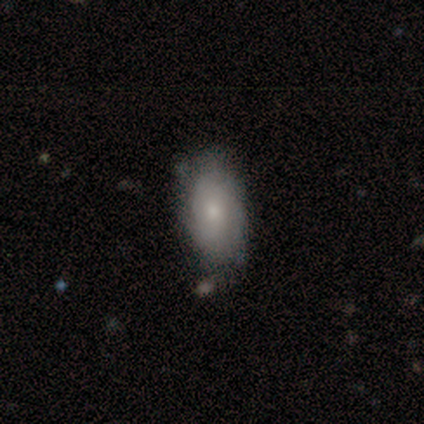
smooth_or_featured: smooth (p=0.60) [alt: featured or disk p=0.35]
how_rounded: in between (p=0.90) [alt: cigar-shaped p=0.10]
merging: none (p=0.63) [alt: minor disturbance p=0.32]